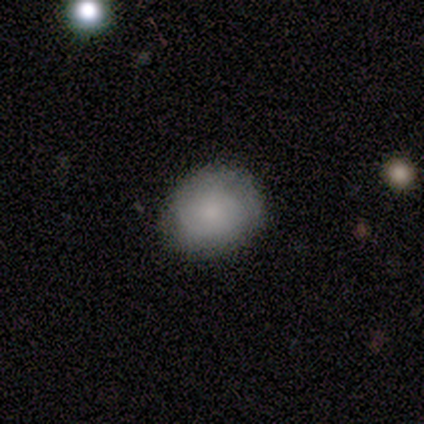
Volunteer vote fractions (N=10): A smooth galaxy with no disk features (90%) that is round (89%). Merging: none (100%).